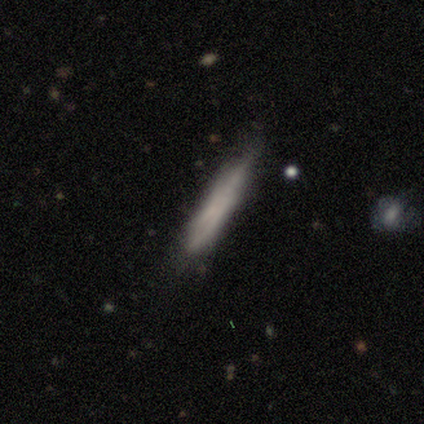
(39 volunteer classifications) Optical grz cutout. It shows a smooth galaxy with no disk features (51%) that is cigar-shaped (95%). Merging: none (62%).